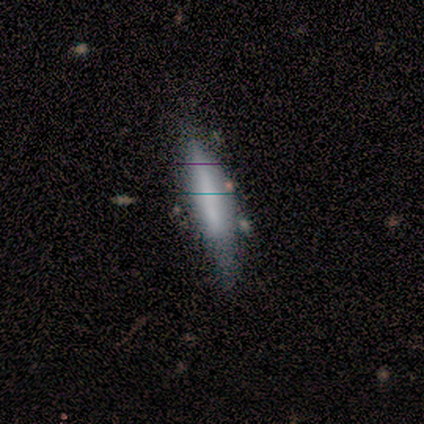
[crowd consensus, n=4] Smooth or featured?
  - smooth: 75% *
  - featured or disk: 25%
  - star or artifact: 0%
How rounded?
  - in between: 67% *
  - cigar-shaped: 33%
  - round: 0%
Merging?
  - minor disturbance: 75% *
  - none: 25%
  - major disturbance: 0%
  - merger: 0%